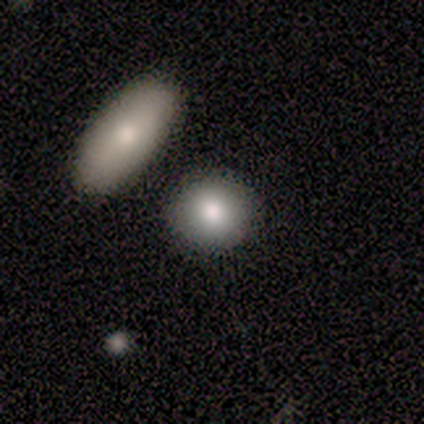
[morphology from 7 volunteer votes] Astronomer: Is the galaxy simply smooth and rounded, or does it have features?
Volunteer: smooth — 71%.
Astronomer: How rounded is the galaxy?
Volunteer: round — 60% (runner-up: in between, 40%).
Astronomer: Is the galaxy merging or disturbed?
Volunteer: none — 100%.